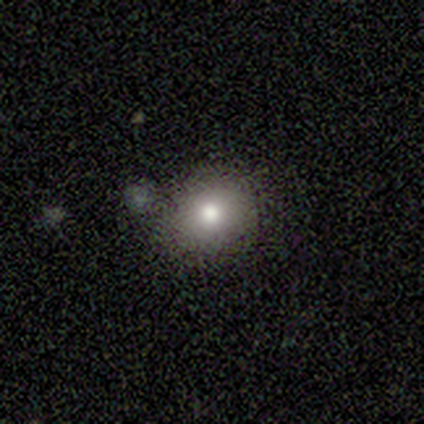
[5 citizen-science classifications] Smooth or featured? smooth (100%)
How rounded? round (80%)
Merging? none (100%)